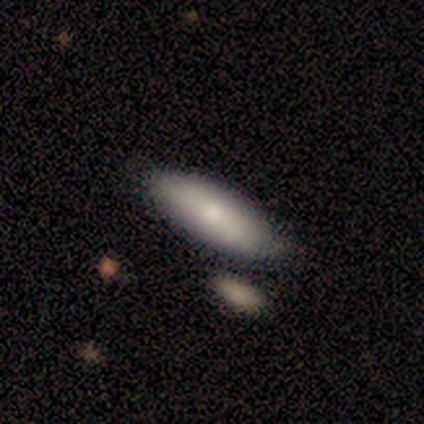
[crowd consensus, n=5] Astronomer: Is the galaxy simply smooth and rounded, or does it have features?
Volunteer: smooth — 100%.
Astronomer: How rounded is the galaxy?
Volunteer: in between — 80%.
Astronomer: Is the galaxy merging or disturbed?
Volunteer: none — 100%.